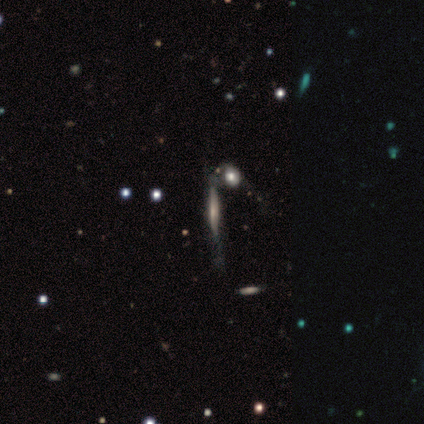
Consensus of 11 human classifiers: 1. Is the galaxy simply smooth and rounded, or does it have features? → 73% featured or disk, 18% star or artifact, 9% smooth.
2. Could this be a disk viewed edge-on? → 88% yes, 12% no.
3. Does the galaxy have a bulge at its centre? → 57% rounded, 29% boxy, 14% none.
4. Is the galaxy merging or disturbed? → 44% minor disturbance, 33% merger, 22% none, 0% major disturbance.